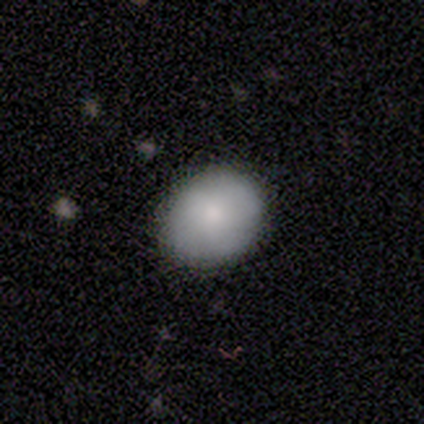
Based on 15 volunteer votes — Q: Smooth or featured?
A: smooth (87%); runner-up: featured or disk (13%)
Q: How rounded?
A: round (54%); runner-up: in between (46%)
Q: Merging?
A: none (93%); runner-up: minor disturbance (7%)